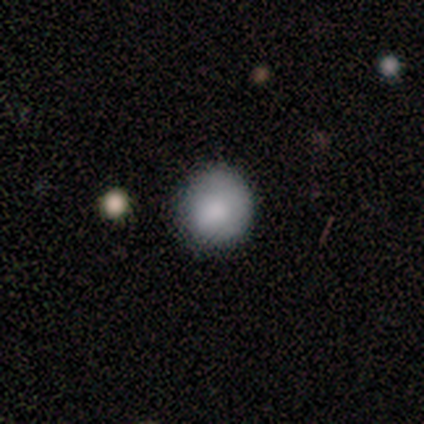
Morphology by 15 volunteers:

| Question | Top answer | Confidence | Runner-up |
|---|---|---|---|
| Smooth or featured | smooth | 80% | star or artifact (13%) |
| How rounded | round | 100% | — |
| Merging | none | 85% | minor disturbance (8%) |